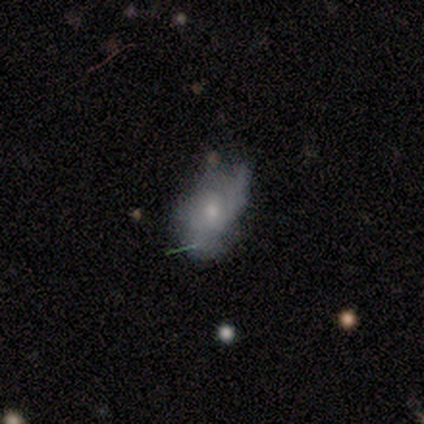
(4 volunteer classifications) Smooth or featured: smooth — 50% (featured or disk — 25%)
How rounded: round — 50% (tied with in between — 50%)
Merging: major disturbance — 67% (none — 33%)